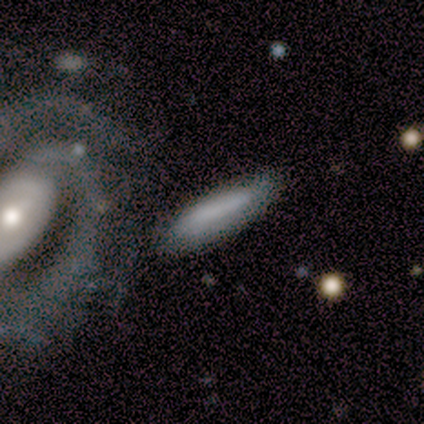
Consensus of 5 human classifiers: Q: Smooth or featured?
A: smooth (80%); runner-up: featured or disk (20%)
Q: How rounded?
A: cigar-shaped (75%); runner-up: in between (25%)
Q: Merging?
A: none (60%); runner-up: minor disturbance (40%)